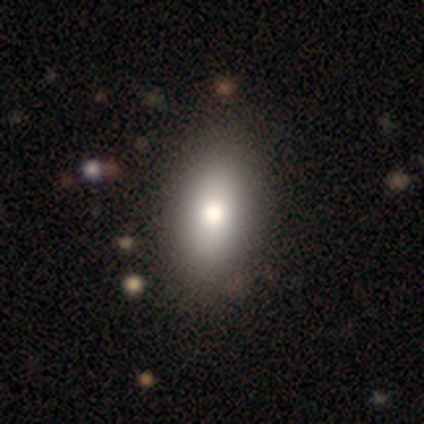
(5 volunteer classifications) A smooth galaxy with no disk features (100%) that is in between round and cigar-shaped (100%). Merging: none (100%).